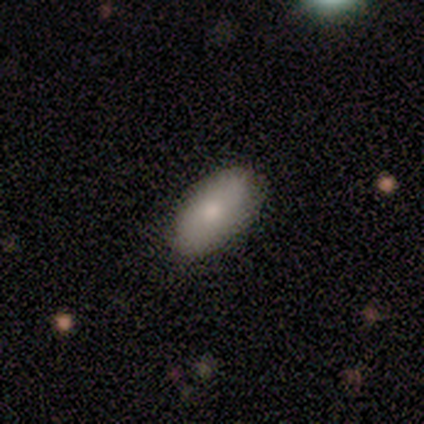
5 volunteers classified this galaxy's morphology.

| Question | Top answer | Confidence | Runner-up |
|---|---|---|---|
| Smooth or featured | smooth | 100% | — |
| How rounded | in between | 100% | — |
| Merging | none | 100% | — |